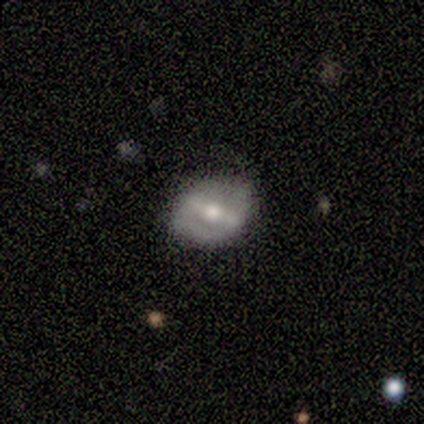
Smooth or featured? 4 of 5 (80%) said featured or disk. Edge-on disk? 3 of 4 (75%) said no. Bar? 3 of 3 (100%) said strong. Spiral arms? 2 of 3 (67%) said no. Bulge size? 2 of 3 (67%) said moderate. Merging? 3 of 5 (60%) said minor disturbance.